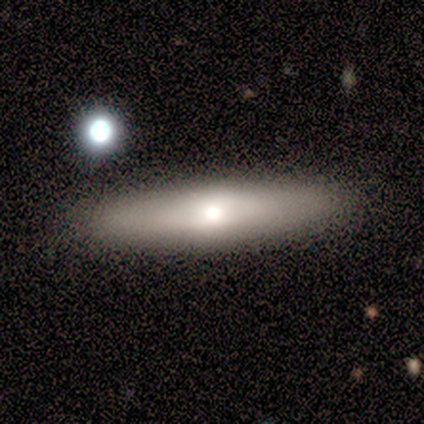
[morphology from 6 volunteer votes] A featured or disk galaxy (83%) viewed edge-on (60%) with a rounded central bulge (67%). Merging: none (83%).